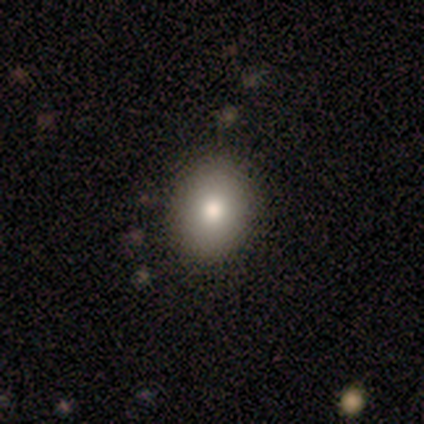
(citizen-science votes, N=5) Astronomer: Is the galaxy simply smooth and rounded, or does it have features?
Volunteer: smooth — 80%.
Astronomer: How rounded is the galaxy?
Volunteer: round — 75%.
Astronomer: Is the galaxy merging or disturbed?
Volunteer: none — 80%.